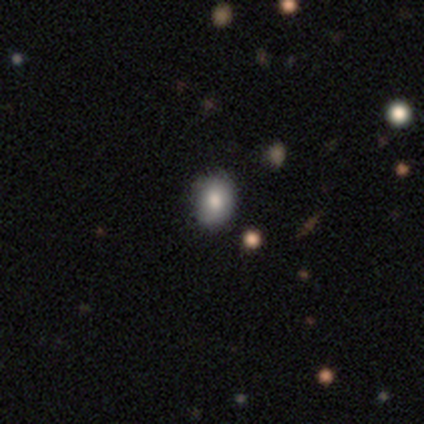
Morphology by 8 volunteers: This appears to be a smooth galaxy with no disk features (50%) that is in between round and cigar-shaped (75%). Merging: none (71%).